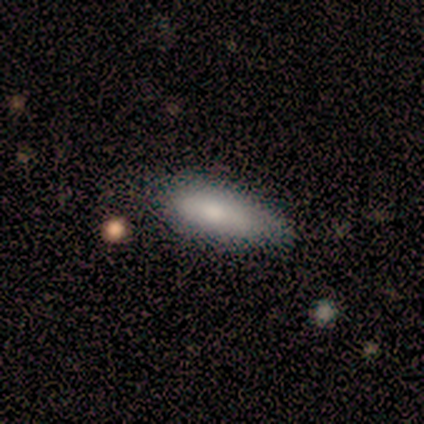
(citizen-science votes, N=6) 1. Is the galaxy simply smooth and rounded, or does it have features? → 83% smooth, 17% featured or disk, 0% star or artifact.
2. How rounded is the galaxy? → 80% in between, 20% cigar-shaped, 0% round.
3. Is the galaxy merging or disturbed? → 67% minor disturbance, 33% none, 0% major disturbance, 0% merger.